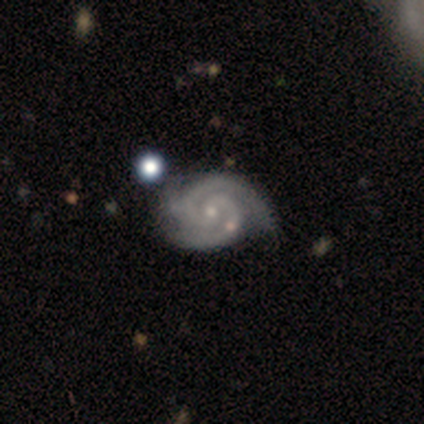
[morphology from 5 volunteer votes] This is likely a featured or disk galaxy (60%). It is clearly not viewed edge-on (100%). Bar: likely weak (67%). Spiral arm pattern: clearly yes (100%). Spiral arm count: likely 2 (67%). Spiral winding: likely tight (67%). Central bulge: likely small (67%). Merging: likely none (60%).